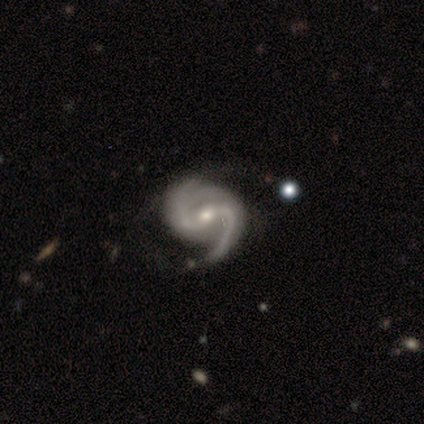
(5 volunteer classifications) Smooth or featured: featured or disk — 100%
Edge-on disk: no — 80% (yes — 20%)
Bar: weak — 50% (strong — 25%)
Spiral arms: yes — 100%
Spiral winding: medium — 50% (tight — 25%)
Spiral arm count: 2 — 100%
Bulge size: small — 100%
Merging: none — 100%